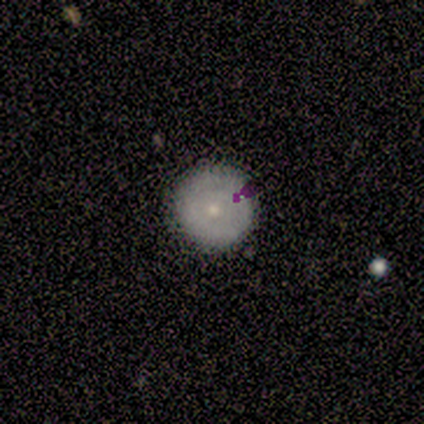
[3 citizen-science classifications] smooth_or_featured: smooth (p=0.33) [tied with: featured or disk p=0.33, star or artifact p=0.33]
how_rounded: round (p=1.00)
merging: none (p=0.50) [tied with: major disturbance p=0.50]